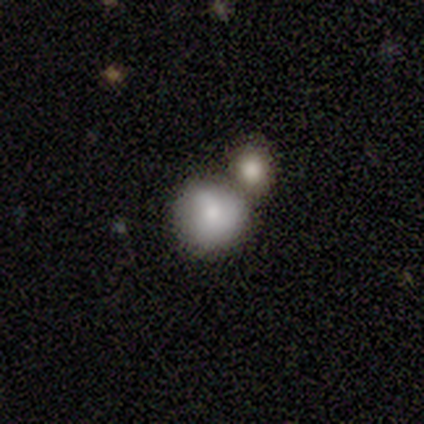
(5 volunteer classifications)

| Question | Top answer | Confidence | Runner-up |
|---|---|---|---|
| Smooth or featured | smooth | 100% | — |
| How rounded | round | 60% | in between (40%) |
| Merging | minor disturbance | 40% | none (20%) |